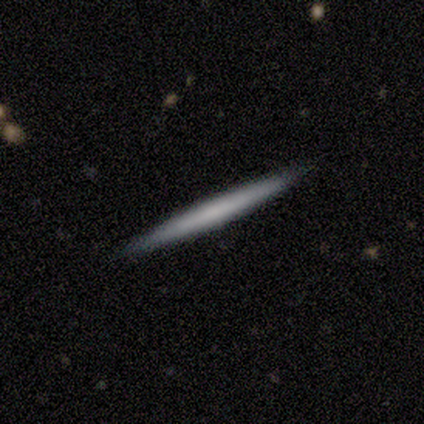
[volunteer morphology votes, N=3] Smooth or featured: smooth — 67% (featured or disk — 33%)
How rounded: cigar-shaped — 100%
Merging: none — 100%